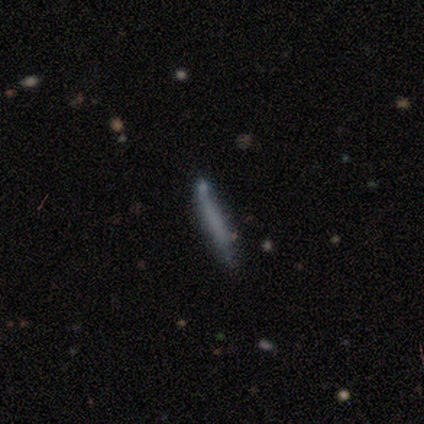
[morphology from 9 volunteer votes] A smooth galaxy with no disk features (89%) that is cigar-shaped (100%). Merging: none (89%).